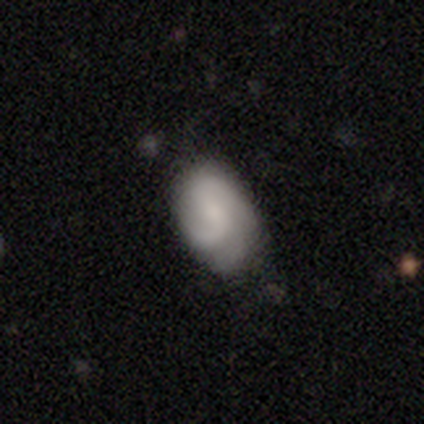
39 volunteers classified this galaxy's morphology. Smooth or featured?
  - featured or disk: 54% *
  - smooth: 46%
  - star or artifact: 0%
Edge-on disk?
  - no: 100% *
  - yes: 0%
Bar?
  - no: 57% *
  - weak: 38%
  - strong: 5%
Spiral arms?
  - yes: 86% *
  - no: 14%
Spiral winding?
  - medium: 67% *
  - tight: 17%
  - loose: 17%
Spiral arm count?
  - 2: 56% *
  - can't tell: 28%
  - 3: 11%
  - 4: 6%
  - 1: 0%
  - more than 4: 0%
Bulge size?
  - small: 43% *
  - moderate: 33%
  - none: 24%
  - dominant: 0%
  - large: 0%
Merging?
  - none: 62% *
  - minor disturbance: 31%
  - major disturbance: 8%
  - merger: 0%